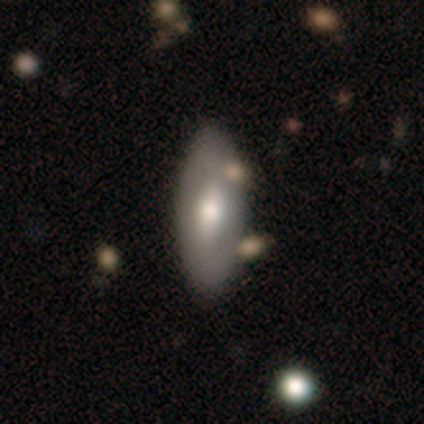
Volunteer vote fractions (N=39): Q: Smooth or featured?
A: smooth (67%); runner-up: featured or disk (26%)
Q: How rounded?
A: in between (81%); runner-up: cigar-shaped (15%)
Q: Merging?
A: none (67%); runner-up: minor disturbance (17%)